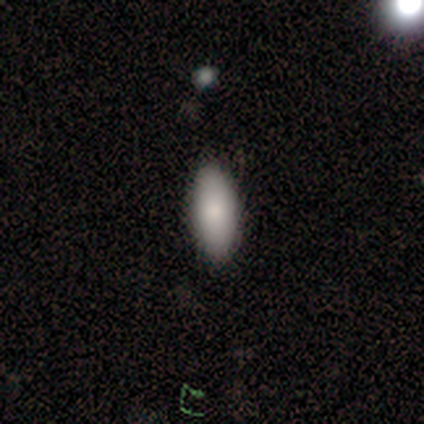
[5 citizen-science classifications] Smooth or featured: smooth — 80% (star or artifact — 20%)
How rounded: in between — 100%
Merging: none — 50% (minor disturbance — 25%)